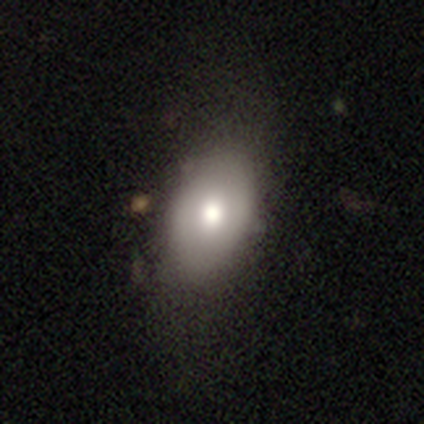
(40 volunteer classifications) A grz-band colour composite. It shows a smooth galaxy with no disk features (75%) that is in between round and cigar-shaped (93%). Merging: none (68%).